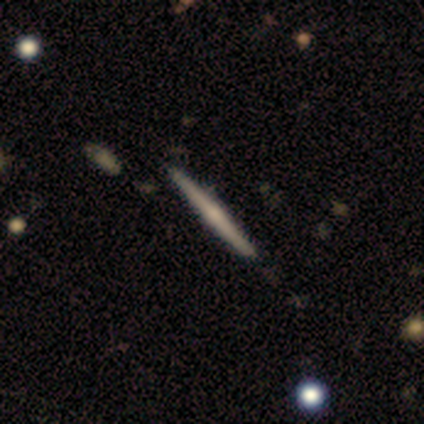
Smooth or featured: smooth — 60% (featured or disk — 40%)
How rounded: cigar-shaped — 100%
Merging: none — 100%